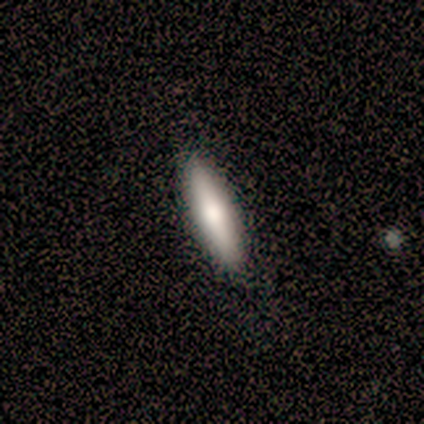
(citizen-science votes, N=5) A smooth galaxy with no disk features (100%) that is cigar-shaped (60%). Merging: none (100%).